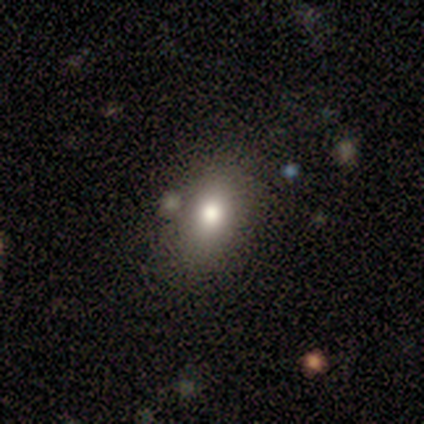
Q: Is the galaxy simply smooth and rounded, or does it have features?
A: smooth — 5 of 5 (100%).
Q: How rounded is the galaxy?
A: in between — 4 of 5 (80%).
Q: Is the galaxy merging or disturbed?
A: none — 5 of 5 (100%).